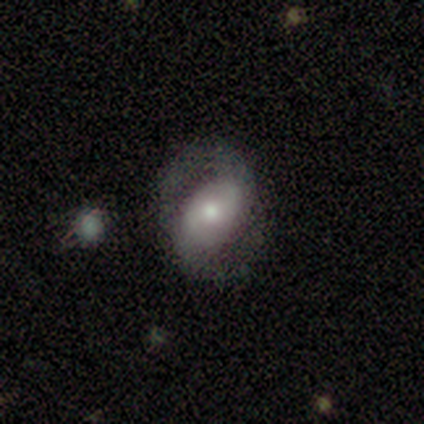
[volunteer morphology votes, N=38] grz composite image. It shows a featured or disk galaxy (76%) with a weak bar (39%), 2 (85%) tight (35%, tied with medium) spiral arms (71%) and a moderate central bulge (46%, tied with small). Merging: none (69%).